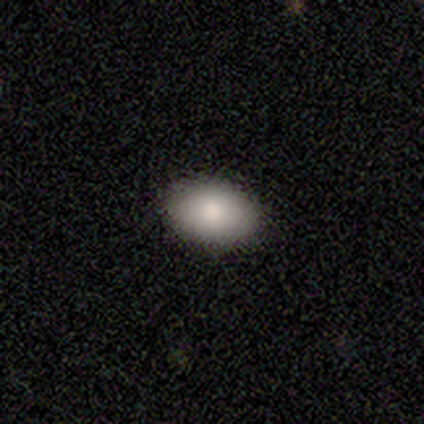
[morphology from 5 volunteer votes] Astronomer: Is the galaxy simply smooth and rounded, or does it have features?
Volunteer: smooth — 100%.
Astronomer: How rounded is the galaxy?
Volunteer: in between — 100%.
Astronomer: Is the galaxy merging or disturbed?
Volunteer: none — 80%.